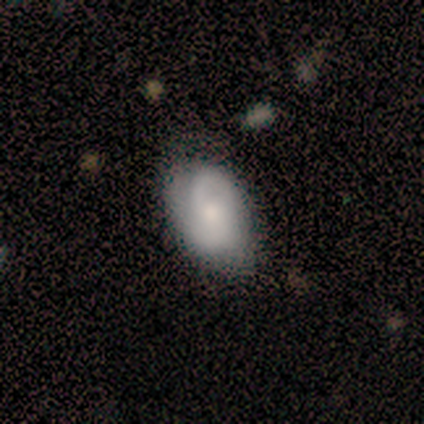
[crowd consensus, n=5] Volunteers were most divided on "smooth or featured": featured or disk: 60%, smooth: 40%, star or artifact: 0%. More confident: edge-on disk — no (100%); bar — no (100%); spiral arms — no (67%); bulge size — moderate (67%); merging — none (60%).